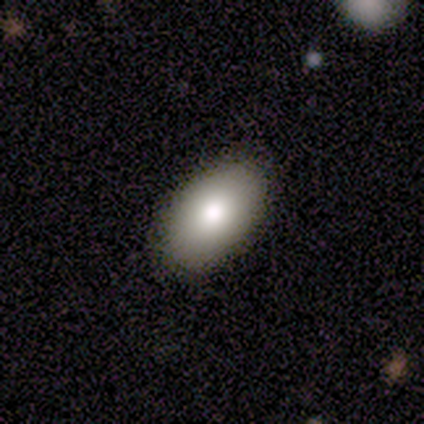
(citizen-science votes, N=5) Smooth or featured: smooth — 100%
How rounded: in between — 100%
Merging: none — 100%